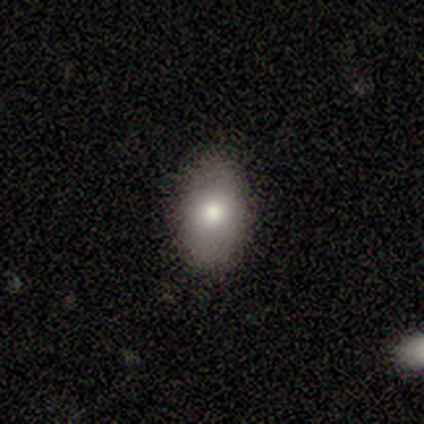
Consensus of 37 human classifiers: A smooth galaxy with no disk features (78%) that is in between round and cigar-shaped (79%).

Vote fractions:
- Smooth or featured? smooth: 78% / featured or disk: 16% / star or artifact: 5%
- How rounded? in between: 79% / round: 21% / cigar-shaped: 0%
- Merging? none: 80% / minor disturbance: 14% / major disturbance: 6% / merger: 0%